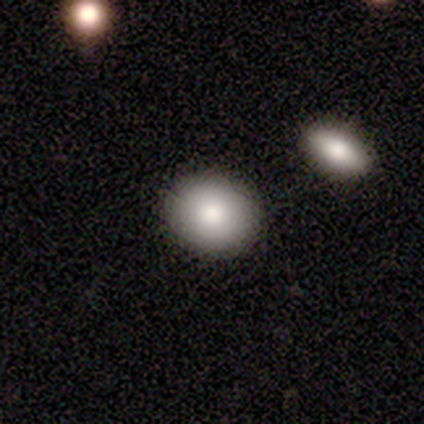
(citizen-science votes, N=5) A smooth galaxy with no disk features (100%) that is round (60%).

Vote fractions:
- Smooth or featured? smooth: 100% / featured or disk: 0% / star or artifact: 0%
- How rounded? round: 60% / in between: 40% / cigar-shaped: 0%
- Merging? none: 100% / minor disturbance: 0% / major disturbance: 0% / merger: 0%